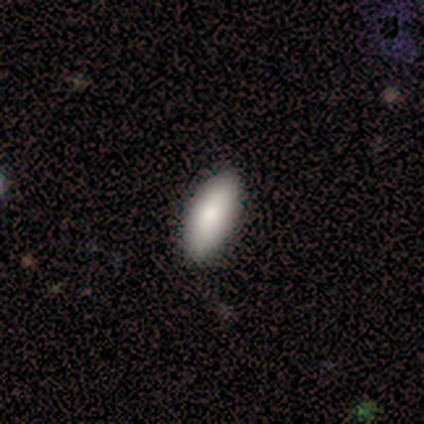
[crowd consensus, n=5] Overall: smooth (80%). How rounded: in between (75%). Merging: none (80%).